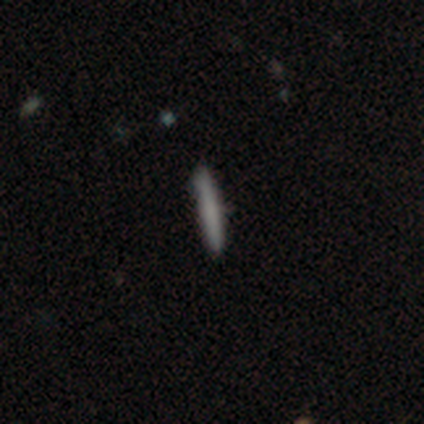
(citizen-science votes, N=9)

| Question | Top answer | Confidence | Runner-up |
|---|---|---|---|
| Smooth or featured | smooth | 100% | — |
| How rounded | cigar-shaped | 100% | — |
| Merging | none | 89% | major disturbance (11%) |